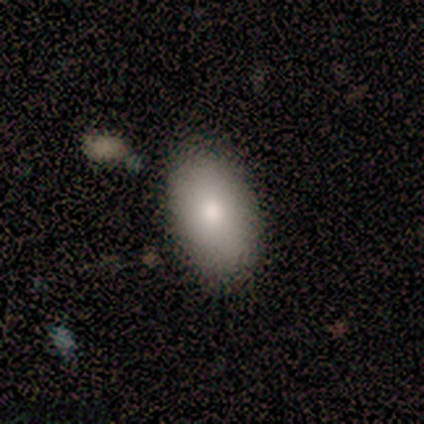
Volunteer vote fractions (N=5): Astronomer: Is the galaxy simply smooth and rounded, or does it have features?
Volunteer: featured or disk — 60% (runner-up: smooth, 40%).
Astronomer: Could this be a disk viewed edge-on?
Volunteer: yes — 67%.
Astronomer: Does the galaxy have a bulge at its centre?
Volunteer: rounded — 100%.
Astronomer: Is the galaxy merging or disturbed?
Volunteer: none — 60%.